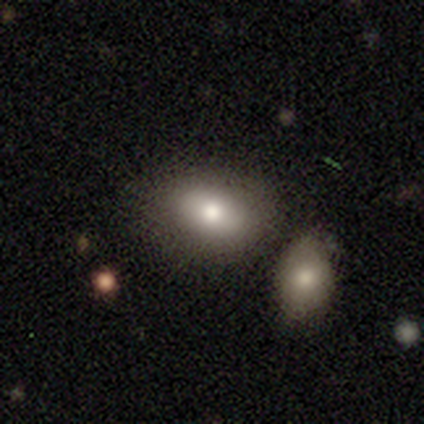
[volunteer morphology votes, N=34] Volunteers were most divided on "merging": merger: 55%, none: 0%, minor disturbance: 0%, major disturbance: 0%. More confident: how rounded — in between (86%); smooth or featured — smooth (82%).